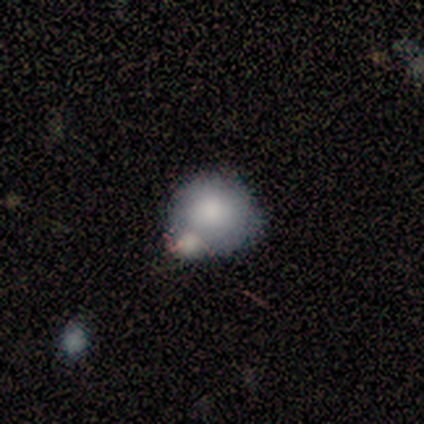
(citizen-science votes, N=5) A smooth galaxy with no disk features (100%) that is round (100%). Merging: merger (60%).